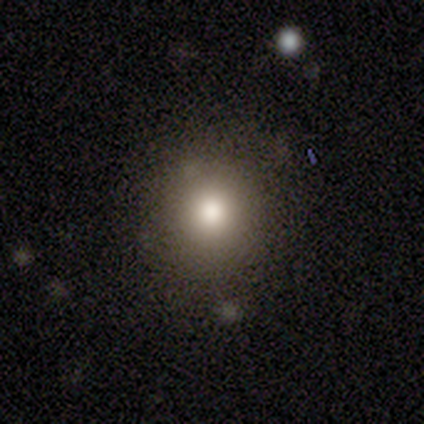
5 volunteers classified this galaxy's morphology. Q: Smooth or featured?
A: smooth (60%); runner-up: featured or disk (20%)
Q: How rounded?
A: round (100%)
Q: Merging?
A: none (75%); runner-up: merger (25%)